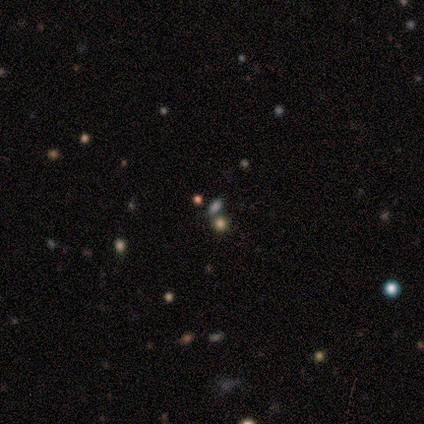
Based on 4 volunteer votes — star or artifact 75%, featured or disk 25%, smooth 0%.